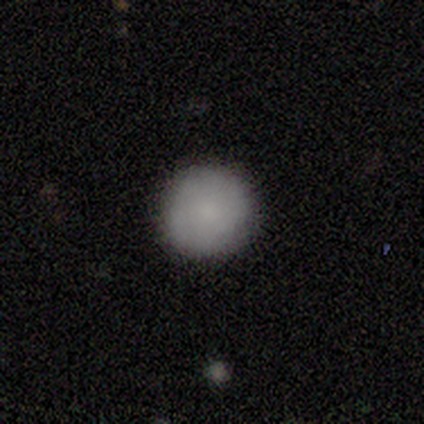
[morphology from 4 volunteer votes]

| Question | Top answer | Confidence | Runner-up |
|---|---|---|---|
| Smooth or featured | smooth | 75% | star or artifact (25%) |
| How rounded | round | 100% | — |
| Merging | none | 100% | — |